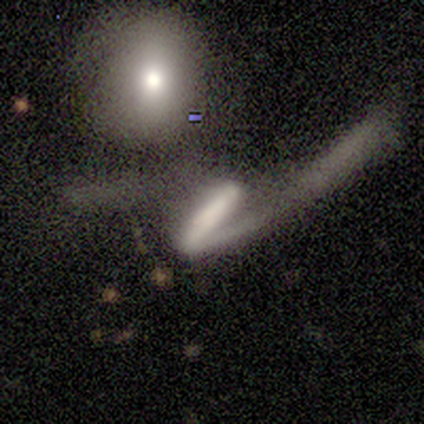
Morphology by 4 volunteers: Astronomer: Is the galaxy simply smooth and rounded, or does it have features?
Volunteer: featured or disk — 75%.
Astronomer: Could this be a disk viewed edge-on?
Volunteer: no — 67%.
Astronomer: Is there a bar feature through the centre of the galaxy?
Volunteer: strong — 100%.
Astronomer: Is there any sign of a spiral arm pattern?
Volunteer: yes — 100%.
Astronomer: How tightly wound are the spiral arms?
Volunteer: medium — 50%, tied with loose at 50%.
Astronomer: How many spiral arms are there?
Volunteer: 2 — 100%.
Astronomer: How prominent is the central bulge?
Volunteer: large — 50%, tied with small at 50%.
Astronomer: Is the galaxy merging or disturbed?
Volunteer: none — 25%, tied with minor disturbance, major disturbance and merger at 25%.